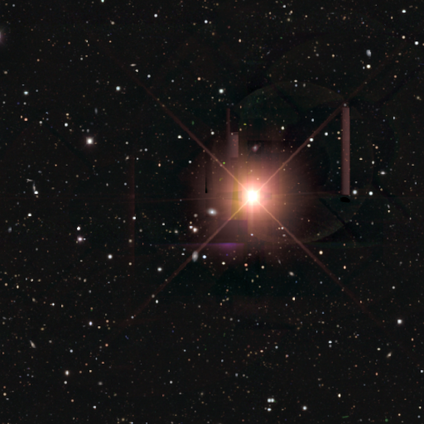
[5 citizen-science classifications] This appears to be a star or artifact, not a galaxy (80%).